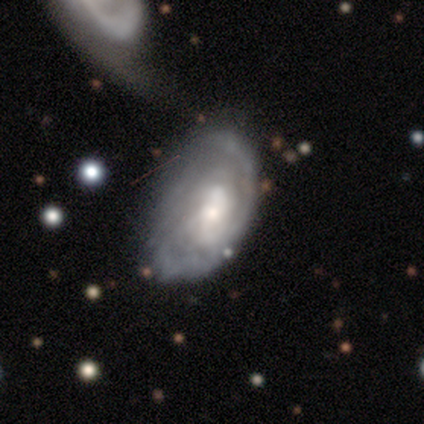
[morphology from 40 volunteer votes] Smooth or featured? 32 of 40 (80%) said featured or disk. Edge-on disk? 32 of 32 (100%) said no. Bar? 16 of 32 (50%) said no. Spiral arms? 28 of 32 (88%) said yes. Spiral winding? 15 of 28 (54%) said tight. Spiral arm count? 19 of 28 (68%) said can't tell. Bulge size? 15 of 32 (47%) said moderate. Merging? 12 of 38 (32%) said major disturbance.